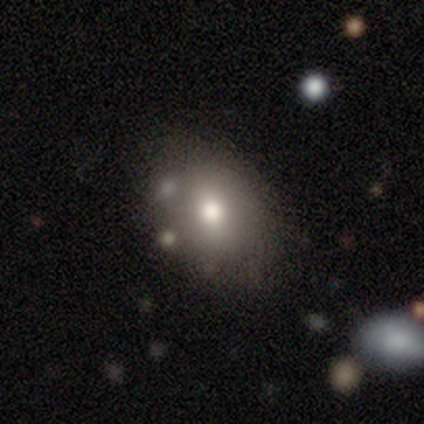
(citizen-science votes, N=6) Smooth or featured? smooth (67%)
How rounded? in between (75%)
Merging? none (60%)